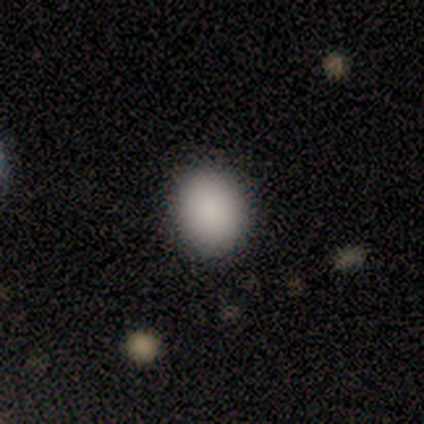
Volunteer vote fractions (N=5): Smooth or featured? 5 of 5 (100%) said smooth. How rounded? 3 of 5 (60%) said in between. Merging? 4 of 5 (80%) said none.